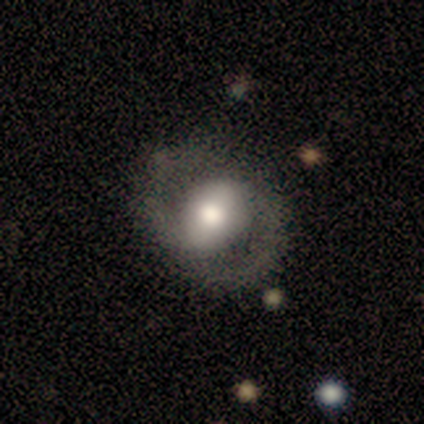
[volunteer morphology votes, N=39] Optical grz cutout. It shows a featured or disk galaxy (72%) with a weak bar (44%), 2 (100%) medium (54%) spiral arms (89%) and a moderate central bulge (59%). Merging: none (86%).